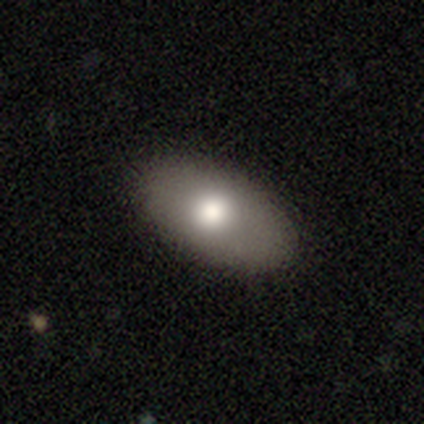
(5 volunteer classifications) Smooth or featured? smooth (80%)
How rounded? in between (100%)
Merging? none (100%)